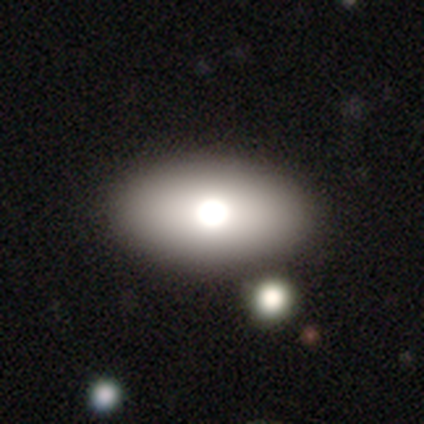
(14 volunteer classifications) Smooth or featured: smooth — 86% (featured or disk — 14%)
How rounded: in between — 100%
Merging: none — 79% (major disturbance — 14%)